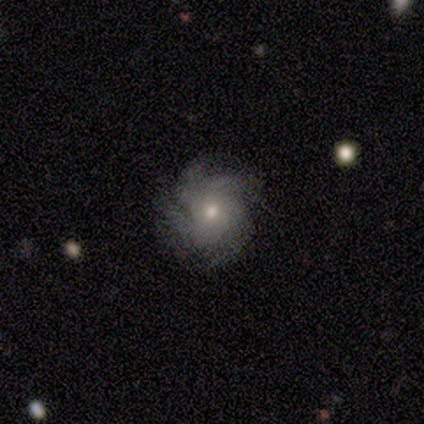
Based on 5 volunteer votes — Smooth or featured: featured or disk — 80% (smooth — 20%)
Edge-on disk: no — 100%
Bar: no — 100%
Spiral arms: yes — 100%
Spiral winding: tight — 50% (medium — 25%)
Spiral arm count: 4 — 75% (can't tell — 25%)
Bulge size: moderate — 50% (tied with small — 50%)
Merging: none — 60% (minor disturbance — 40%)